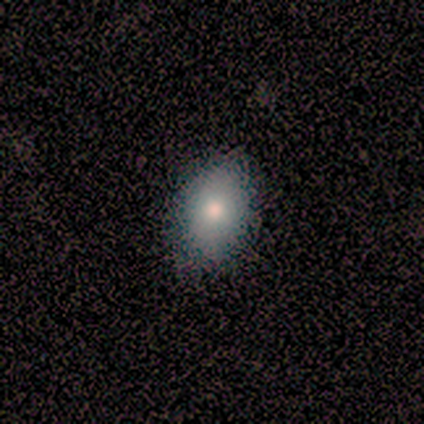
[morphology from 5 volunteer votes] This is clearly a smooth galaxy (80%). How rounded: likely in between (75%). Merging: clearly none (100%).